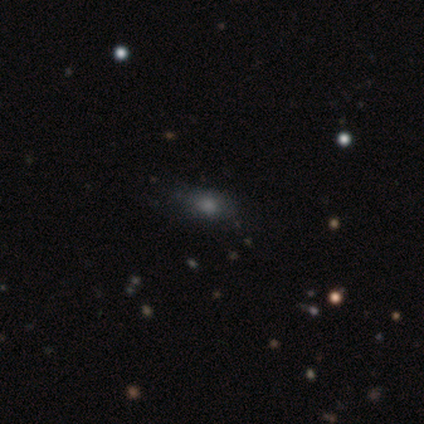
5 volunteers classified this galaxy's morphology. Smooth or featured?
  - smooth: 40% * (tied)
  - featured or disk: 40% * (tied)
  - star or artifact: 20%
How rounded?
  - in between: 100% *
  - round: 0%
  - cigar-shaped: 0%
Merging?
  - major disturbance: 50% *
  - none: 25%
  - minor disturbance: 25%
  - merger: 0%